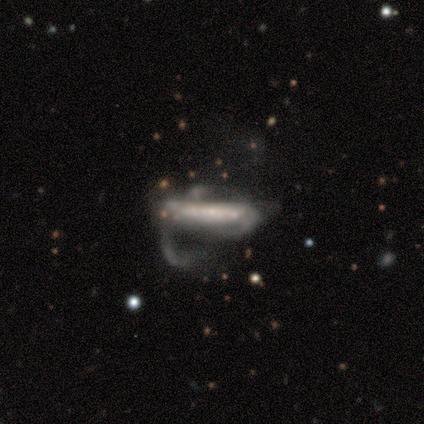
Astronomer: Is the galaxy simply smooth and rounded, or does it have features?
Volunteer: featured or disk — 67%.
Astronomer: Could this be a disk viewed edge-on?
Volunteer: yes — 50%, tied with no at 50%.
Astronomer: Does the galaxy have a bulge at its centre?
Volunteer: none — 50%, tied with rounded at 50%.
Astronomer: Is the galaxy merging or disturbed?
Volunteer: major disturbance — 67%.